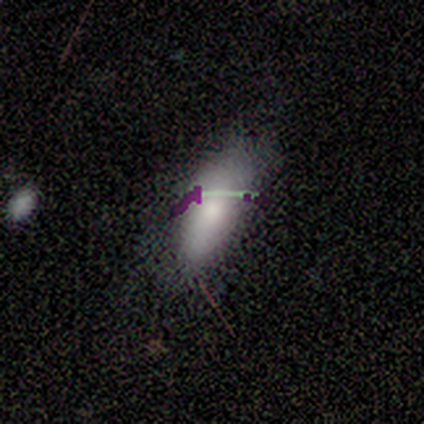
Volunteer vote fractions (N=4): Smooth or featured? 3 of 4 (75%) said smooth. How rounded? 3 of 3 (100%) said in between. Merging? 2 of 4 (50%, tied with minor disturbance) said none.